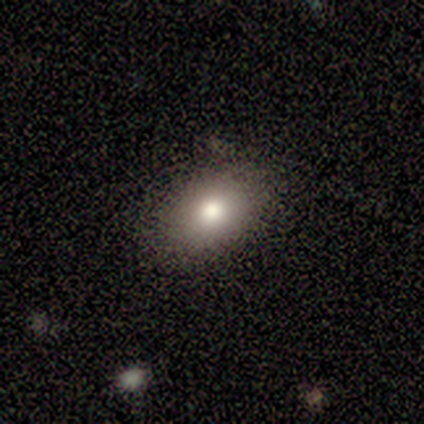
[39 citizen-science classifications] smooth-or-featured: smooth: 85% | featured or disk: 10% | star or artifact: 5%
  how-rounded: in between: 82% | round: 18% | cigar-shaped: 0%
  merging: none: 89% | minor disturbance: 11% | major disturbance: 0% | merger: 0%